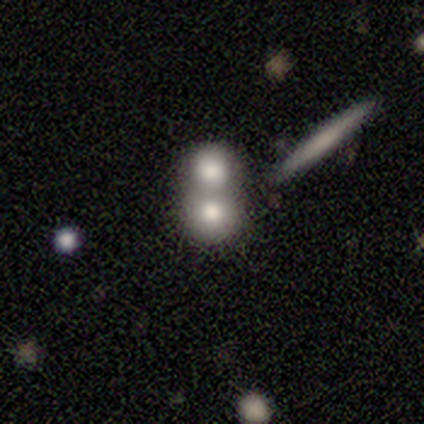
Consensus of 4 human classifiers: Morphology: type=smooth (100%); roundness=round (100%); merging=merger (75%).